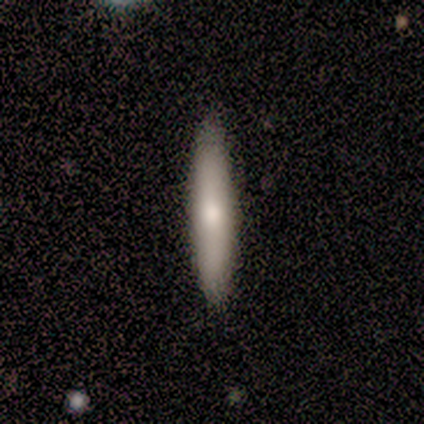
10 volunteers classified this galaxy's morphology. A smooth galaxy with no disk features (60%) that is cigar-shaped (83%). Merging: none (80%).